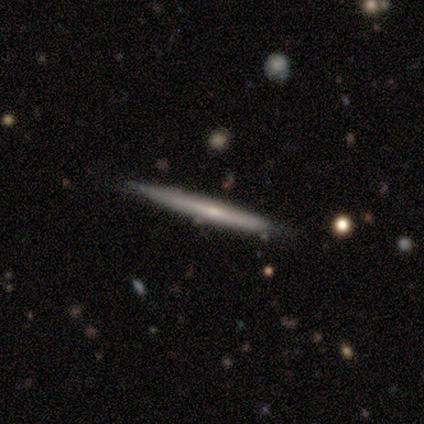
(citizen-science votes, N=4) Smooth or featured? featured or disk (100%)
Edge-on disk? yes (100%)
Edge-on bulge? none (75%)
Merging? none (75%)